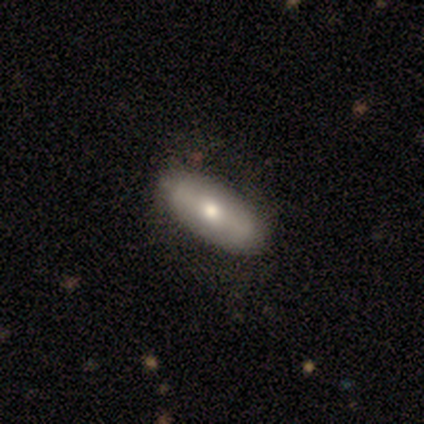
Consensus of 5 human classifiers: A smooth galaxy with no disk features (80%) that is in between round and cigar-shaped (75%).

Vote fractions:
- Smooth or featured? smooth: 80% / featured or disk: 20% / star or artifact: 0%
- How rounded? in between: 75% / cigar-shaped: 25% / round: 0%
- Merging? none: 100% / minor disturbance: 0% / major disturbance: 0% / merger: 0%